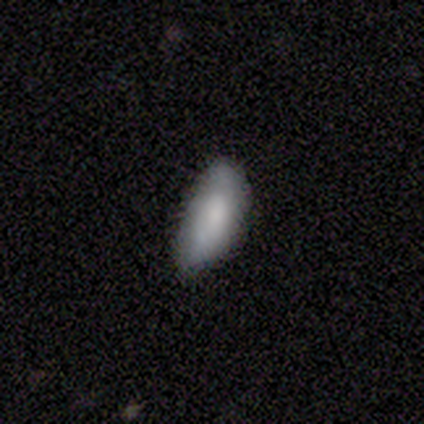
Overall: smooth (80%). How rounded: in between (100%). Merging: none (60%; minor disturbance 40%).